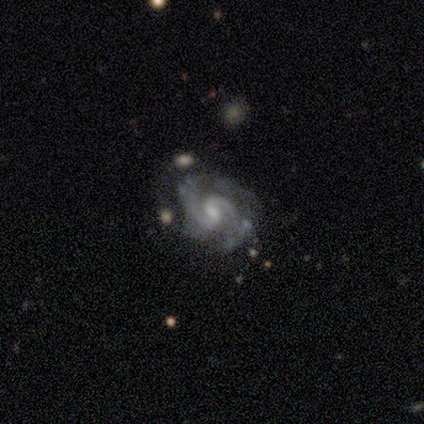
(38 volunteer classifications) This is clearly a featured or disk galaxy (95%). It is clearly not viewed edge-on (97%). Bar: likely weak (69%). Spiral arm pattern: clearly yes (97%). Spiral arm count: likely 2 (68%). Spiral winding: possibly tight (47%, tied with medium). Central bulge: possibly moderate (49%). Merging: possibly none (51%).